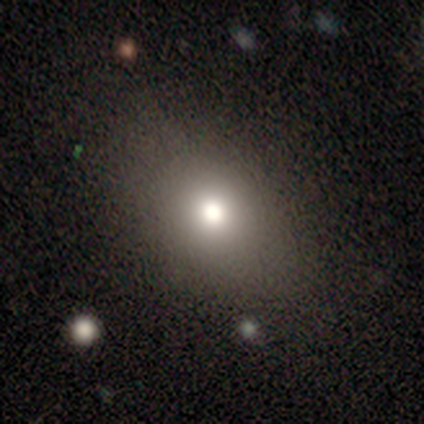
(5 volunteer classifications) smooth 100%, featured or disk 0%, star or artifact 0%. Down the decision tree: how rounded — in between (60%); merging — none (100%).